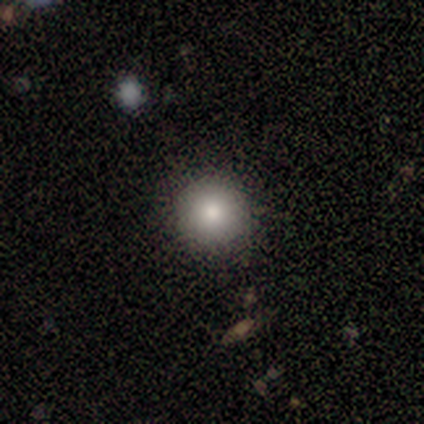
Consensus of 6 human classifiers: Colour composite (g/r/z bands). It shows a smooth galaxy with no disk features (83%) that is round (100%). Merging: none (80%).